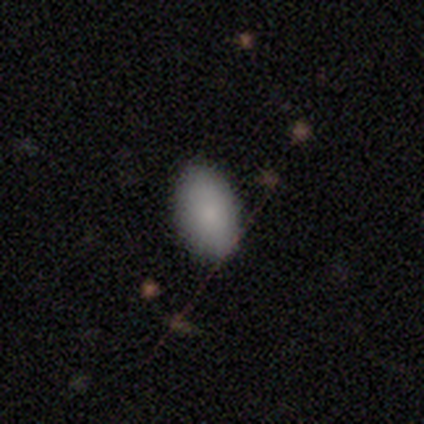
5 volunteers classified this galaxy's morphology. smooth-or-featured: smooth: 100% | featured or disk: 0% | star or artifact: 0%
  how-rounded: in between: 80% | cigar-shaped: 20% | round: 0%
  merging: none: 100% | minor disturbance: 0% | major disturbance: 0% | merger: 0%